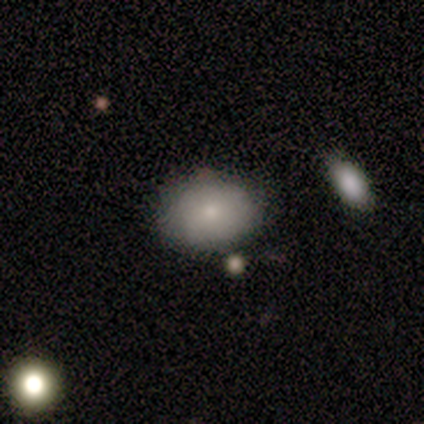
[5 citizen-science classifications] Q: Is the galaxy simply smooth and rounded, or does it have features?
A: smooth — 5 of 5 (100%).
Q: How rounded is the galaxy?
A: in between — 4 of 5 (80%).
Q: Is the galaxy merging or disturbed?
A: none — 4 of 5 (80%).